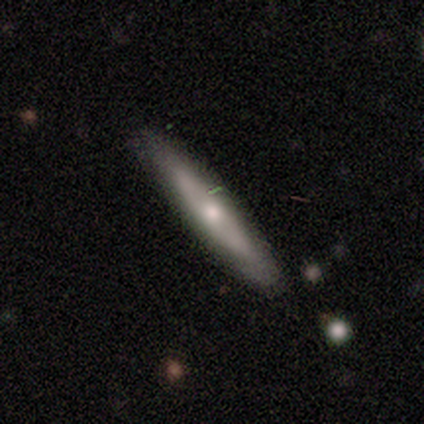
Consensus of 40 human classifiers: Overall: featured or disk (57%; smooth 40%). Edge-on disk: yes (83%). Edge-on bulge: rounded (84%). Merging: none (51%).